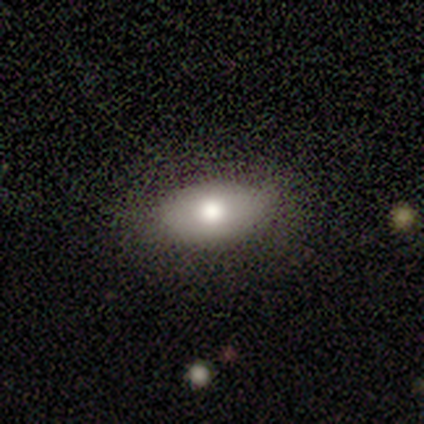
Volunteers were most divided on "smooth or featured": smooth: 69%, featured or disk: 19%, star or artifact: 11%. More confident: merging — none (94%); how rounded — in between (92%).